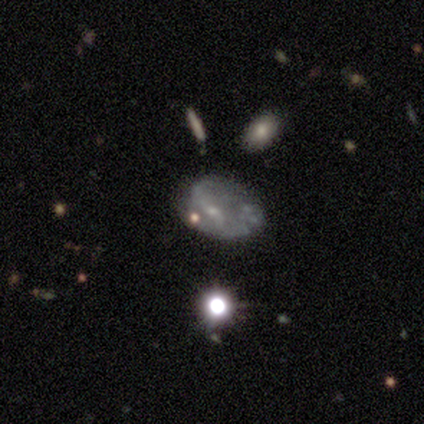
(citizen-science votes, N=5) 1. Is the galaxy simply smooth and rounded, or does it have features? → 100% featured or disk, 0% smooth, 0% star or artifact.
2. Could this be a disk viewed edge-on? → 100% no, 0% yes.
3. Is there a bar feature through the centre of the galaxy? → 60% weak, 40% no, 0% strong.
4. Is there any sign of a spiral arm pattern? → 60% yes, 40% no.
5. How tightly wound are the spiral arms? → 67% loose, 33% tight, 0% medium.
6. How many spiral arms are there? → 67% 2, 33% can't tell, 0% 1, 0% 3, 0% 4, 0% more than 4.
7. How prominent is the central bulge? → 60% small, 20% moderate, 20% none, 0% dominant, 0% large.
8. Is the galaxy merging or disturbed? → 40% none (tied), 40% minor disturbance (tied), 20% major disturbance, 0% merger.